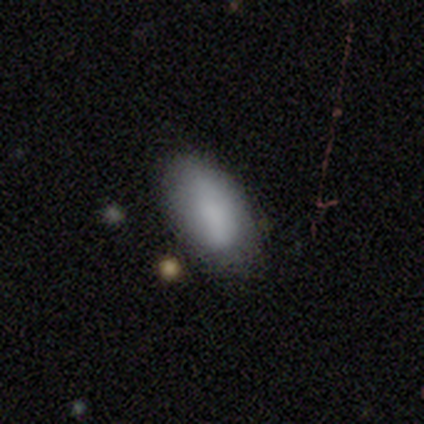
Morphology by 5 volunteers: A smooth galaxy with no disk features (100%) that is in between round and cigar-shaped (100%).

Vote fractions:
- Smooth or featured? smooth: 100% / featured or disk: 0% / star or artifact: 0%
- How rounded? in between: 100% / round: 0% / cigar-shaped: 0%
- Merging? none: 100% / minor disturbance: 0% / major disturbance: 0% / merger: 0%